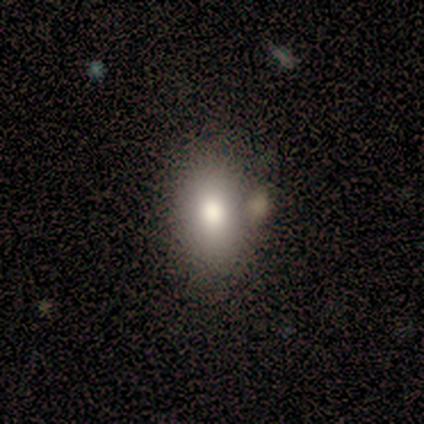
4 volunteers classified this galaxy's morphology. smooth_or_featured: smooth (p=0.50) [alt: featured or disk p=0.25]
how_rounded: round (p=0.50) [tied with: in between p=0.50]
merging: none (p=1.00)